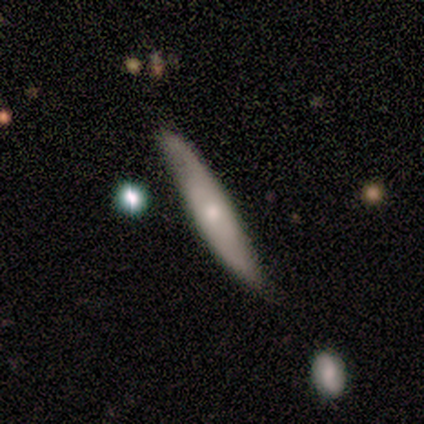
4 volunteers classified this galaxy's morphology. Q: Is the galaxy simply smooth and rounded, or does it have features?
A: featured or disk — 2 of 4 (50%, tied with star or artifact).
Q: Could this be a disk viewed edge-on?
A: yes — 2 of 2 (100%).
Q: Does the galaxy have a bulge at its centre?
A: none — 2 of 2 (100%).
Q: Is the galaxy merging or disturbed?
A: none — 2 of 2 (100%).